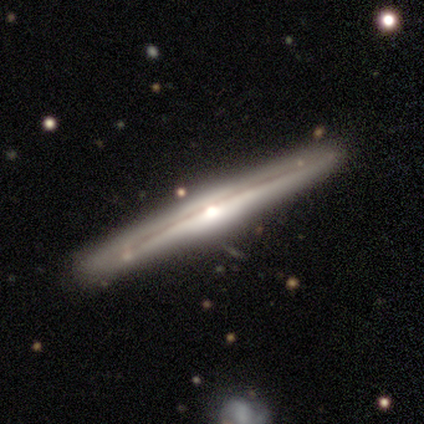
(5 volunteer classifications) This appears to be a featured or disk galaxy (100%) viewed edge-on (100%) with a rounded central bulge (100%). Merging: none (100%).